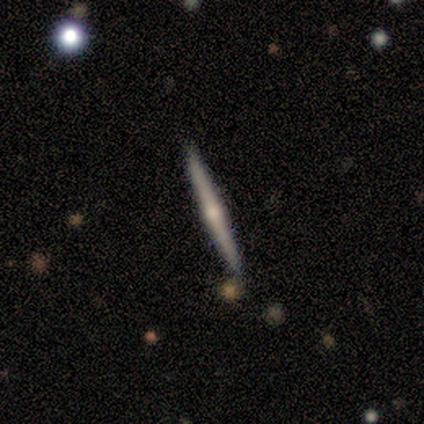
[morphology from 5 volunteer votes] featured or disk 100%, smooth 0%, star or artifact 0%. Down the decision tree: edge-on disk — yes (100%); edge-on bulge — rounded (100%); merging — none (100%).